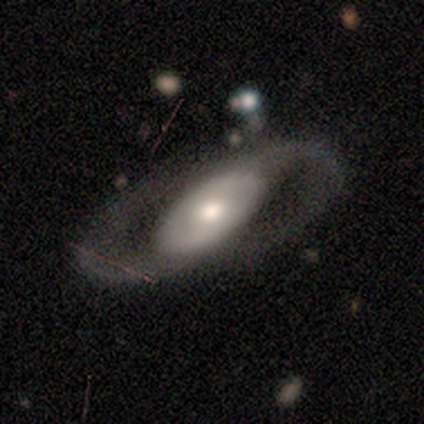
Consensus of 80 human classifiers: Smooth or featured: featured or disk — 82% (smooth — 14%)
Edge-on disk: no — 86% (yes — 14%)
Bar: no — 61% (strong — 21%)
Spiral arms: yes — 82% (no — 18%)
Spiral winding: medium — 57% (tight — 21%)
Spiral arm count: 2 — 100%
Bulge size: moderate — 63% (large — 21%)
Merging: none — 70% (major disturbance — 16%)